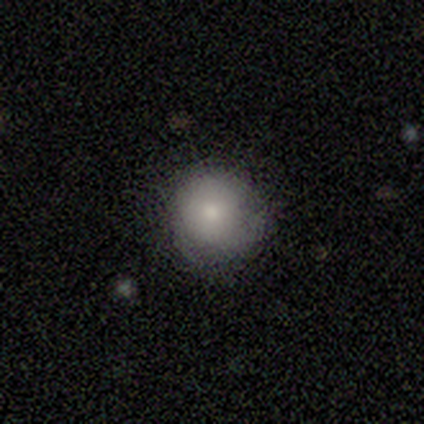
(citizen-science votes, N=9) Overall: smooth (56%; featured or disk 33%). How rounded: round (100%). Merging: none (75%).